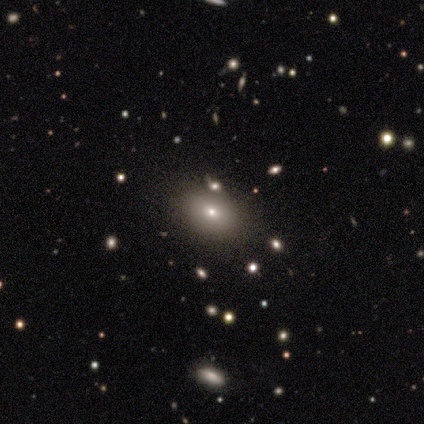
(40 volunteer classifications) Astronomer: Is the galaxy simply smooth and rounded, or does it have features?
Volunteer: smooth — 50% (runner-up: star or artifact, 35%).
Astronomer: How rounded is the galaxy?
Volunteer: in between — 65%.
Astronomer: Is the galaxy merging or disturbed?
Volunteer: none — 85%.